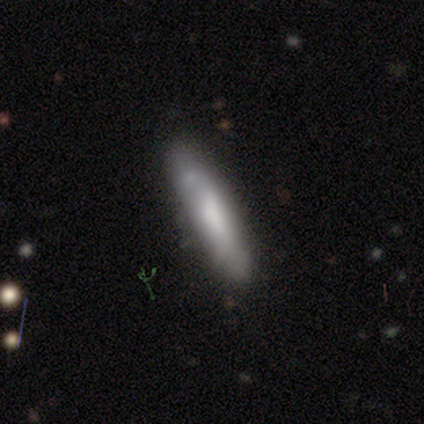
A smooth galaxy with no disk features (64%) that is cigar-shaped (100%).

Vote fractions:
- Smooth or featured? smooth: 64% / featured or disk: 26% / star or artifact: 10%
- How rounded? cigar-shaped: 100% / round: 0% / in between: 0%
- Merging? none: 69% / minor disturbance: 26% / major disturbance: 6% / merger: 0%